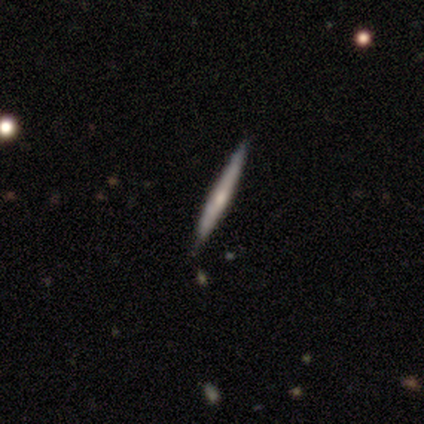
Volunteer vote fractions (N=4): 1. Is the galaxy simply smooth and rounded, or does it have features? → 50% smooth (tied), 50% featured or disk (tied), 0% star or artifact.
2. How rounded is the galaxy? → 100% cigar-shaped, 0% round, 0% in between.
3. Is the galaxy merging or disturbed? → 100% none, 0% minor disturbance, 0% major disturbance, 0% merger.